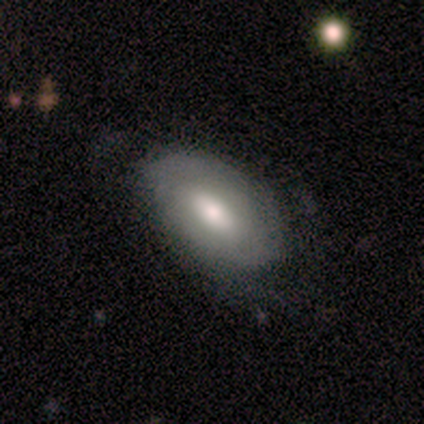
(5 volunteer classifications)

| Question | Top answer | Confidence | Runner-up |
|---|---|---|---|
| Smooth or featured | smooth | 60% | featured or disk (40%) |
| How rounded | in between | 67% | round (33%) |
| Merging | none | 80% | minor disturbance (20%) |